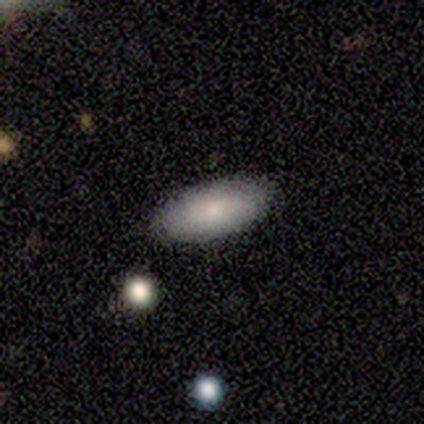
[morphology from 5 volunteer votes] A smooth galaxy with no disk features (100%) that is in between round and cigar-shaped (100%). Merging: none (100%).